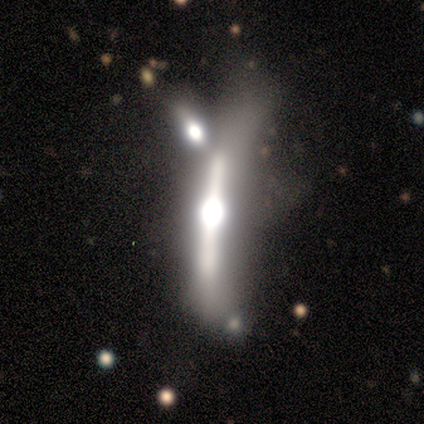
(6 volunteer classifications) This is clearly a featured or disk galaxy (83%). It is clearly viewed edge-on (80%). Edge-on bulge: clearly rounded (100%). Merging: possibly minor disturbance (50%).